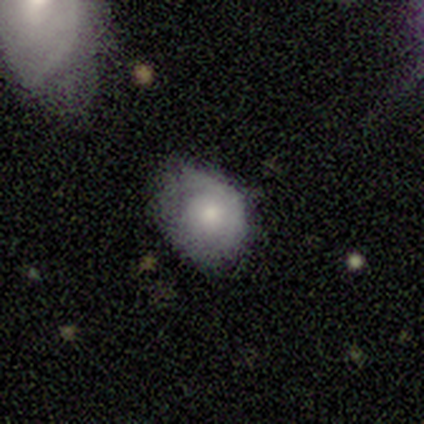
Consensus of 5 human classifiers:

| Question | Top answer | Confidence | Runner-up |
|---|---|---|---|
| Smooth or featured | featured or disk | 60% | smooth (40%) |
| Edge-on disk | no | 100% | — |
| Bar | no | 100% | — |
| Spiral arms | yes | 67% | no (33%) |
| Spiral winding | tight | 100% | — |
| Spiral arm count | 1 | 50% | tied: can't tell (50%) |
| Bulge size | large | 33% | tied: moderate (33%), small (33%) |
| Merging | none | 60% | minor disturbance (20%) |